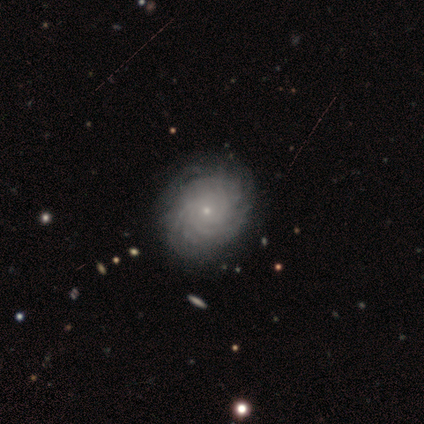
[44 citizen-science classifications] Smooth or featured: featured or disk — 89% (smooth — 7%)
Edge-on disk: no — 100%
Bar: no — 87% (weak — 13%)
Spiral arms: yes — 92% (no — 8%)
Spiral winding: tight — 86% (medium — 11%)
Spiral arm count: more than 4 — 67% (can't tell — 28%)
Bulge size: small — 90% (moderate — 10%)
Merging: none — 79% (minor disturbance — 12%)